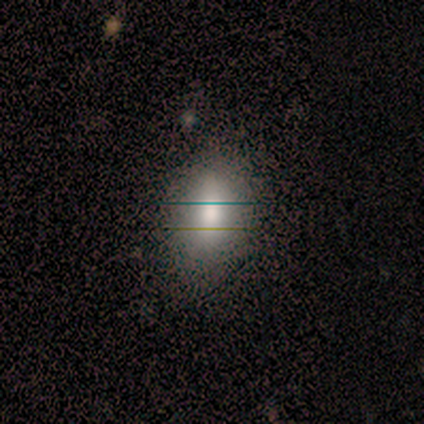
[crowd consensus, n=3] Smooth or featured: smooth — 67% (star or artifact — 33%)
How rounded: in between — 100%
Merging: none — 100%